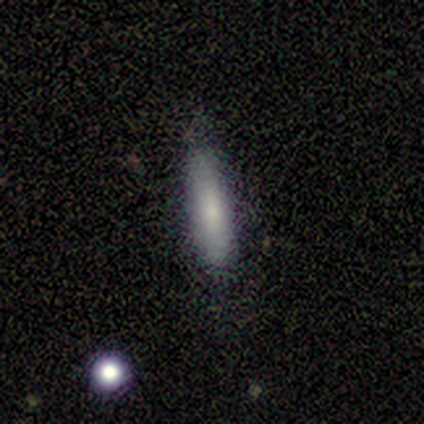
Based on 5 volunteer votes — This is clearly a smooth galaxy (80%). How rounded: likely cigar-shaped (75%). Merging: clearly none (100%).